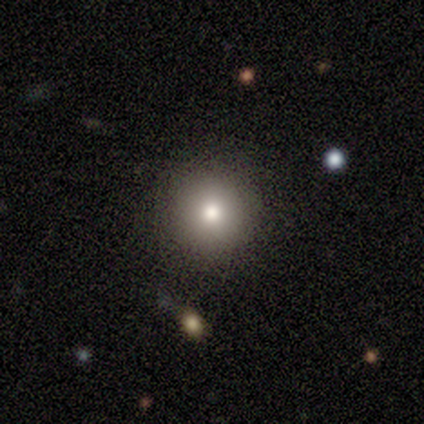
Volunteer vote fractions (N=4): Smooth or featured? 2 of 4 (50%, tied with featured or disk) said smooth. How rounded? 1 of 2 (50%, tied with in between) said round. Merging? 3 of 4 (75%) said none.